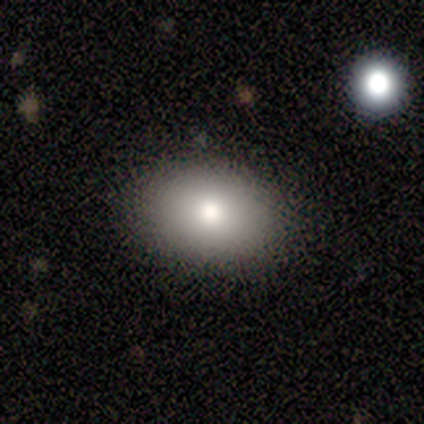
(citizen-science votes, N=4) This appears to be a smooth galaxy with no disk features (75%) that is in between round and cigar-shaped (100%). Merging: none (100%).